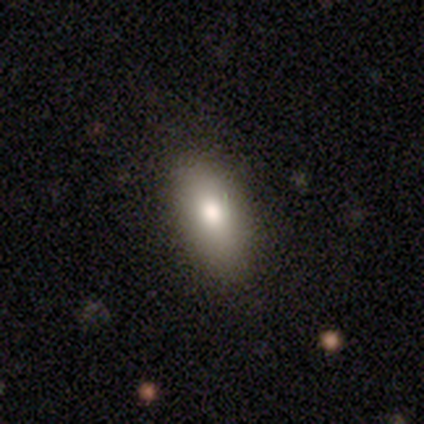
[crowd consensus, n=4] This appears to be a smooth galaxy with no disk features (100%) that is in between round and cigar-shaped (75%). Merging: none (50%, tied with minor disturbance).